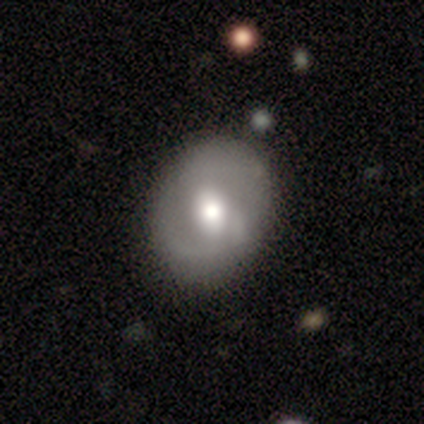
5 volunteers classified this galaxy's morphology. type=featured or disk (80%); edge-on=no (100%); bar=no (75%); spiral arms=no (75%); bulge=moderate (75%); merging=none (80%).